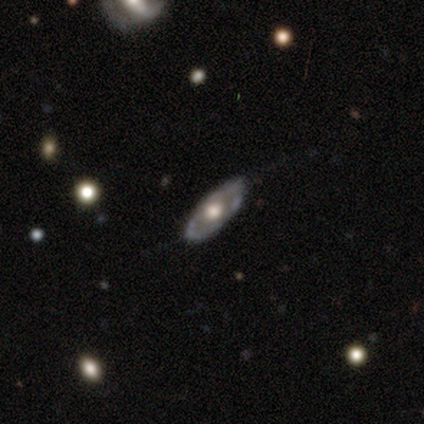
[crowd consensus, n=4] smooth_or_featured: featured or disk (p=0.75) [alt: smooth p=0.25]
disk_edge_on: no (p=1.00)
bar: no (p=1.00)
has_spiral_arms: yes (p=0.67) [alt: no p=0.33]
spiral_winding: tight (p=0.50) [tied with: medium p=0.50]
spiral_arm_count: 2 (p=0.50) [tied with: can't tell p=0.50]
bulge_size: moderate (p=0.67) [alt: large p=0.33]
merging: none (p=1.00)